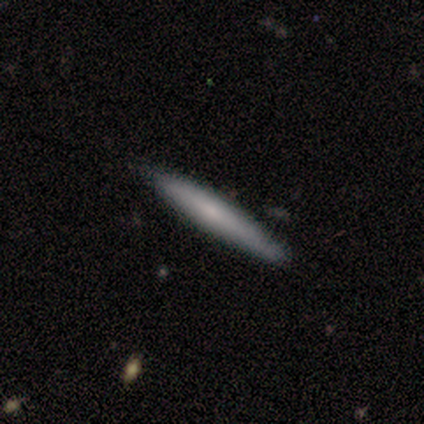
This appears to be a smooth galaxy with no disk features (40%, tied with star or artifact) that is cigar-shaped (100%). Merging: none (100%).